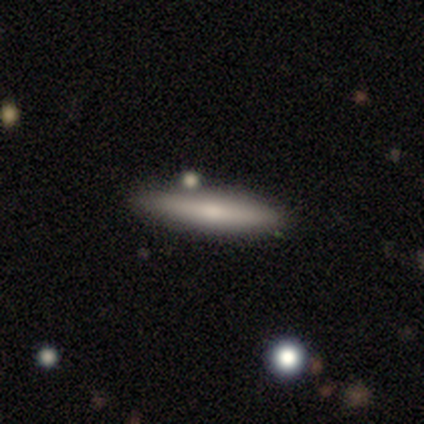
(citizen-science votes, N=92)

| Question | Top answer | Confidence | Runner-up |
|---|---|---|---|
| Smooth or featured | smooth | 66% | featured or disk (30%) |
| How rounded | cigar-shaped | 90% | in between (10%) |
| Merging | none | 76% | minor disturbance (16%) |